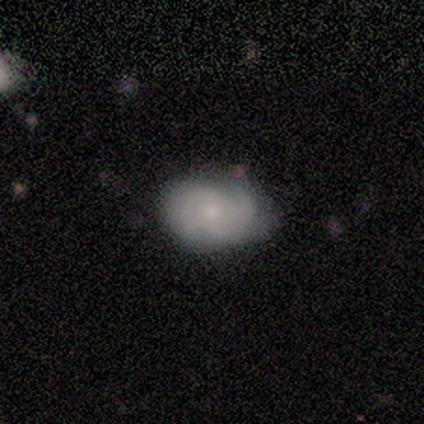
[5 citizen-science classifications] smooth 60%, featured or disk 40%, star or artifact 0%. Down the decision tree: how rounded — in between (100%); merging — none (60%).